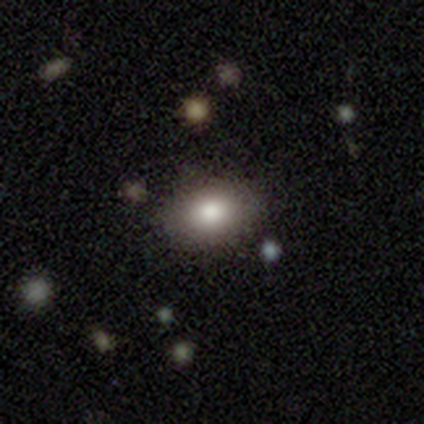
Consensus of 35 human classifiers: smooth-or-featured: smooth: 83% | featured or disk: 14% | star or artifact: 3%
  how-rounded: in between: 79% | round: 21% | cigar-shaped: 0%
  merging: none: 79% | minor disturbance: 15% | major disturbance: 3% | merger: 3%